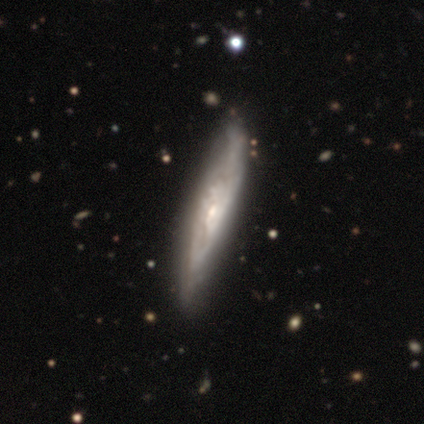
This is clearly a featured or disk galaxy (100%). It is clearly viewed edge-on (80%). Edge-on bulge: likely rounded (75%). Merging: marginally none (40%, tied with major disturbance).